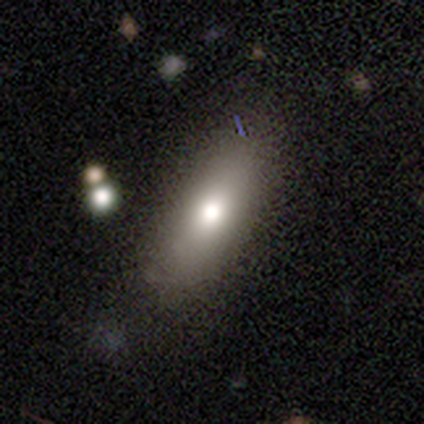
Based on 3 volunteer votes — A featured or disk galaxy (67%) viewed edge-on (50%, tied with no) with a rounded central bulge (100%).

Vote fractions:
- Smooth or featured? featured or disk: 67% / smooth: 33% / star or artifact: 0%
- Edge-on disk? yes: 50% (tied) / no: 50% (tied)
- Edge-on bulge? rounded: 100% / boxy: 0% / none: 0%
- Merging? none: 67% / minor disturbance: 33% / major disturbance: 0% / merger: 0%